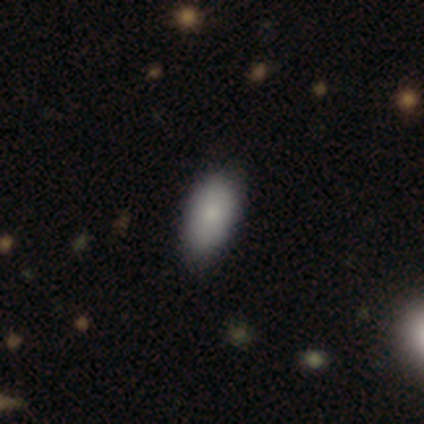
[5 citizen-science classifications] Overall: smooth (60%; star or artifact 40%). How rounded: in between (100%). Merging: none (33%, tied with minor disturbance and merger).